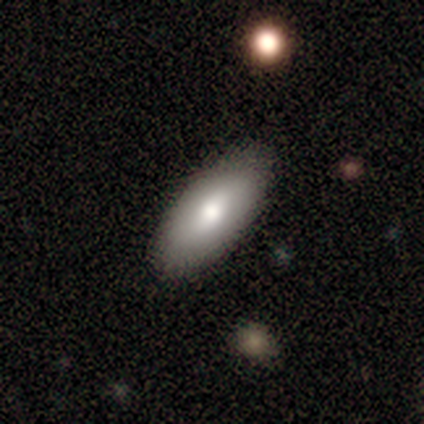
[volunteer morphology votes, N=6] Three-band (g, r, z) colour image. It shows a smooth galaxy with no disk features (83%) that is in between round and cigar-shaped (100%). Merging: none (67%).